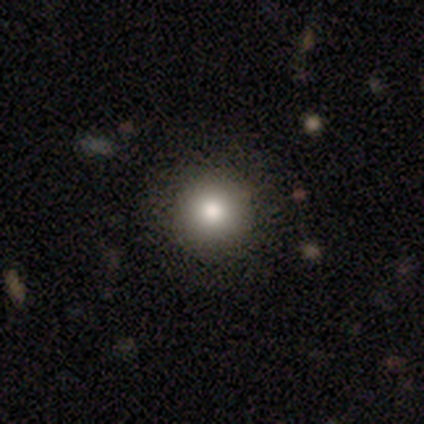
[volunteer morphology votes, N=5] smooth 80%, star or artifact 20%, featured or disk 0%. Down the decision tree: how rounded — round (100%); merging — none (100%).